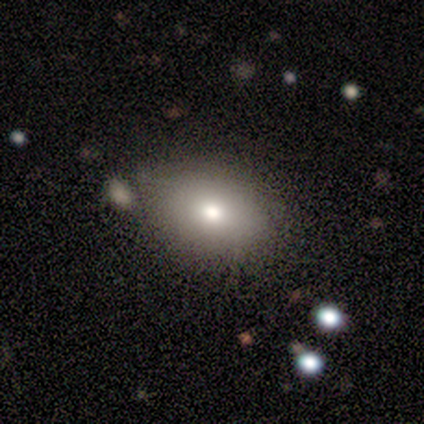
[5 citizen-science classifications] smooth_or_featured: smooth (p=0.60) [alt: featured or disk p=0.20]
how_rounded: in between (p=1.00)
merging: none (p=0.50) [alt: major disturbance p=0.25]